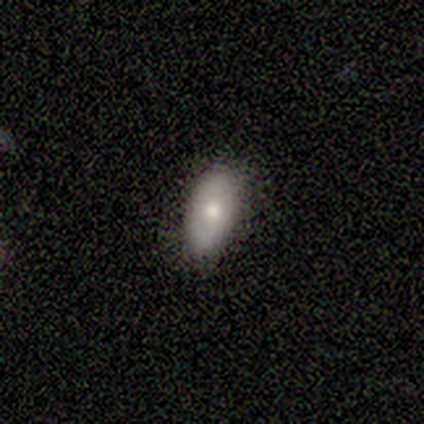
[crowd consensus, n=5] Smooth or featured?
  - smooth: 80% *
  - featured or disk: 20%
  - star or artifact: 0%
How rounded?
  - in between: 75% *
  - cigar-shaped: 25%
  - round: 0%
Merging?
  - none: 80% *
  - minor disturbance: 20%
  - major disturbance: 0%
  - merger: 0%